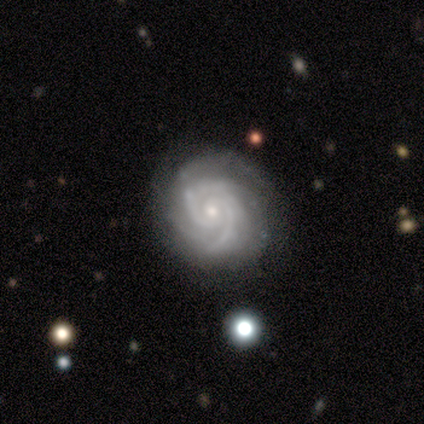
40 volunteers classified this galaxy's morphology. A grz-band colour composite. It shows a featured or disk galaxy (95%) with no bar (75%), 2 (58%) tight (72%) spiral arms (100%) and a small central bulge (78%). Merging: none (89%).